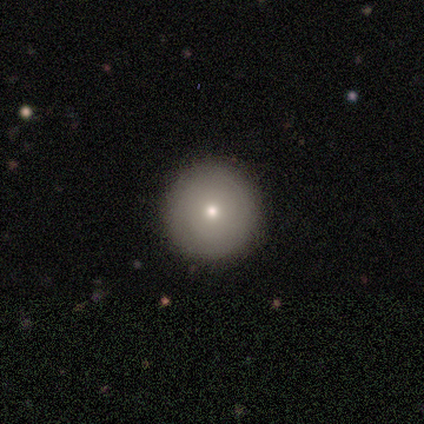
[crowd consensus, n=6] Smooth or featured? smooth (67%)
How rounded? round (100%)
Merging? none (83%)